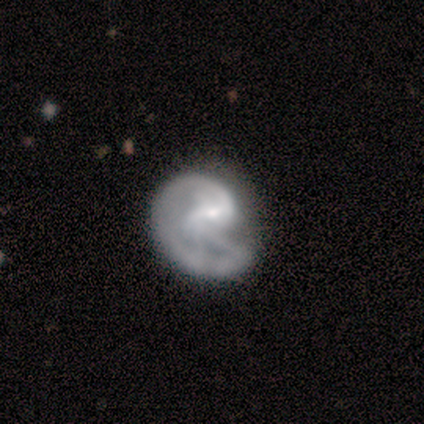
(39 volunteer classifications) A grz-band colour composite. It shows a featured or disk galaxy (90%) with a weak bar (63%), 1 (43%) medium (61%) spiral arms (80%) and a small central bulge (51%). Merging: major disturbance (25%).